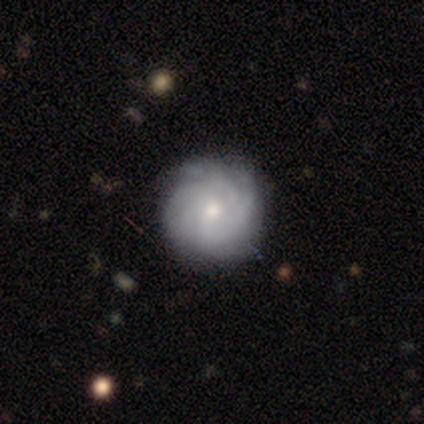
Volunteers were most divided on "smooth or featured" (2-way tie): smooth: 50%, featured or disk: 50%, star or artifact: 0%; "how rounded" (2-way tie): round: 50%, in between: 50%, cigar-shaped: 0%. More confident: merging — none (75%).